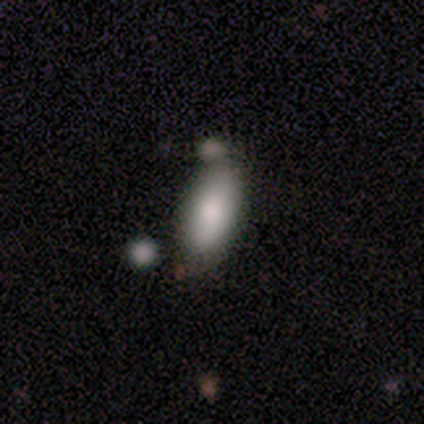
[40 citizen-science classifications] Volunteers were most divided on "merging": none: 66%, merger: 16%, minor disturbance: 11%, major disturbance: 5%. More confident: how rounded — in between (91%); smooth or featured — smooth (88%).